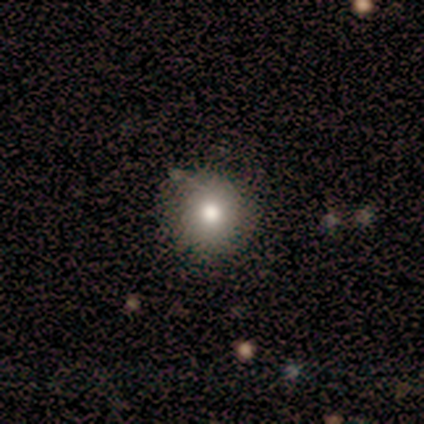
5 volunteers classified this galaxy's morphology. Smooth or featured? smooth (80%)
How rounded? round (100%)
Merging? none (50%, tied with minor disturbance)